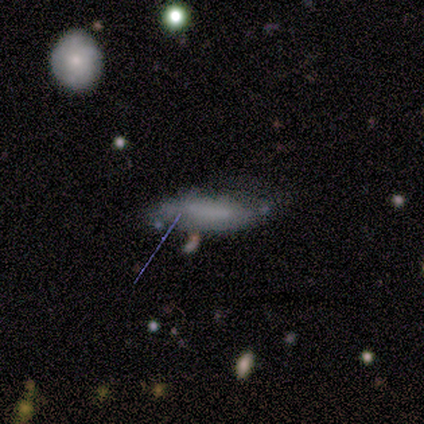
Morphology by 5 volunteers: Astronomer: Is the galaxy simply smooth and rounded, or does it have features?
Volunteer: smooth — 80%.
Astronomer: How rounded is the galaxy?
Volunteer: in between — 50%.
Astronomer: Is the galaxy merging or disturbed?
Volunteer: none — 75%.